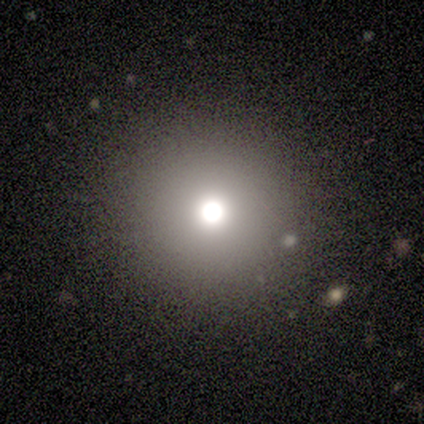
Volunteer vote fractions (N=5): Smooth or featured: smooth — 100%
How rounded: round — 100%
Merging: none — 100%